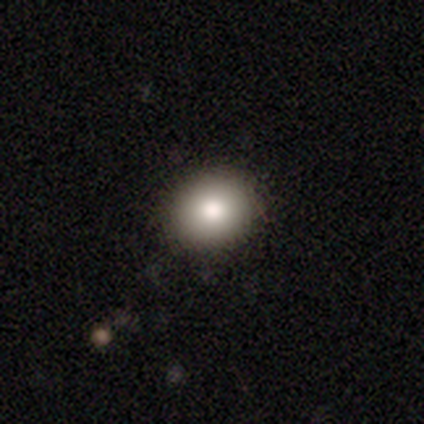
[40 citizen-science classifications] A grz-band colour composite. It shows a smooth galaxy with no disk features (72%) that is round (83%). Merging: none (94%).